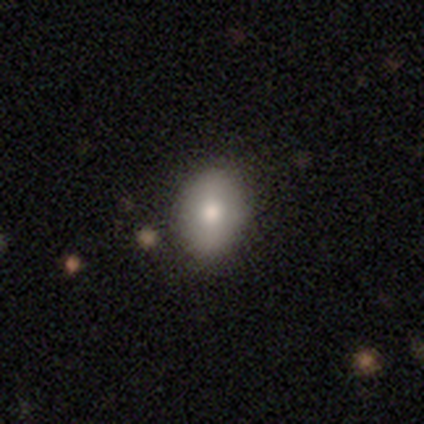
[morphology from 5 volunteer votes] This appears to be a smooth galaxy with no disk features (60%) that is round (67%). Merging: none (100%).